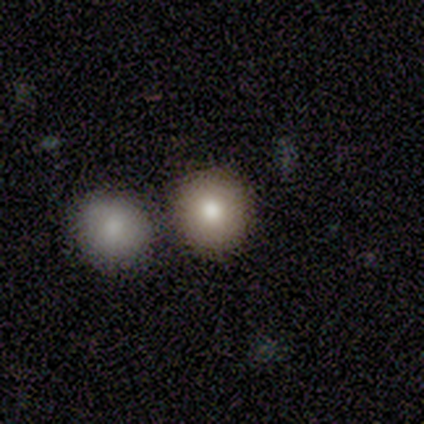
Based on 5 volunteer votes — smooth 100%, featured or disk 0%, star or artifact 0%. Down the decision tree: how rounded — round (80%); merging — none (60%).